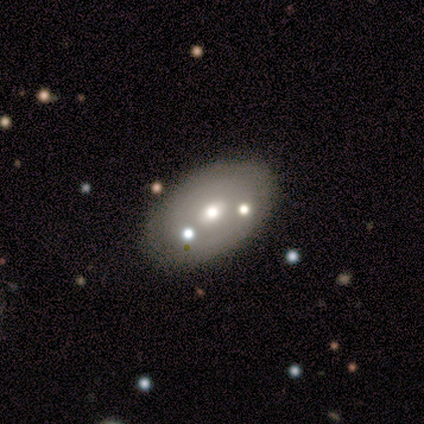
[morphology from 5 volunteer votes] Volunteers were most divided on "merging": none: 60%, major disturbance: 20%, merger: 20%, minor disturbance: 0%. More confident: edge-on disk — no (100%); smooth or featured — featured or disk (80%); bar — no (75%); spiral arms — no (75%); bulge size — small (75%).